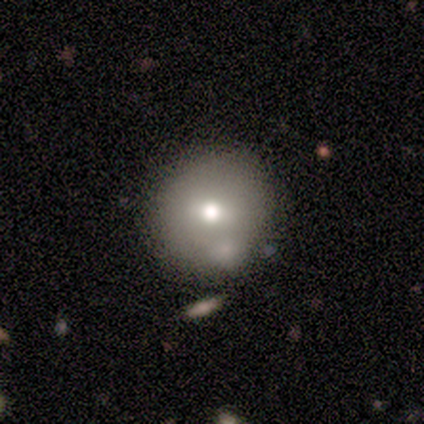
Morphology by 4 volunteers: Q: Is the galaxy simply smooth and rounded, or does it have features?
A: smooth — 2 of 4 (50%, tied with star or artifact).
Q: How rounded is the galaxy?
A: round — 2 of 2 (100%).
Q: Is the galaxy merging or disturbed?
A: none — 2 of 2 (100%).